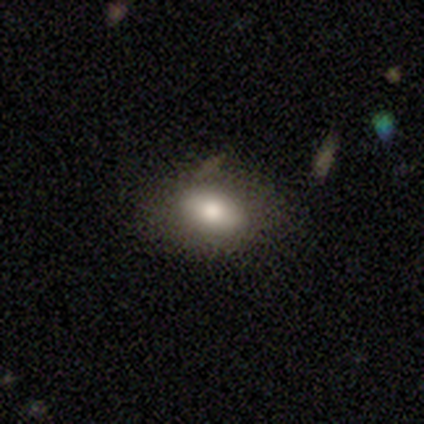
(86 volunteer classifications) Overall: smooth (64%). How rounded: in between (87%). Merging: none (79%).